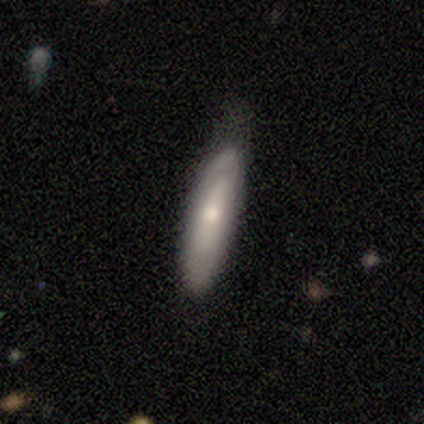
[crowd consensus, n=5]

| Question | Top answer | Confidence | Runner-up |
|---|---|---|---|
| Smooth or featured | smooth | 60% | featured or disk (40%) |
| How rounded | cigar-shaped | 100% | — |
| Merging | minor disturbance | 60% | none (40%) |